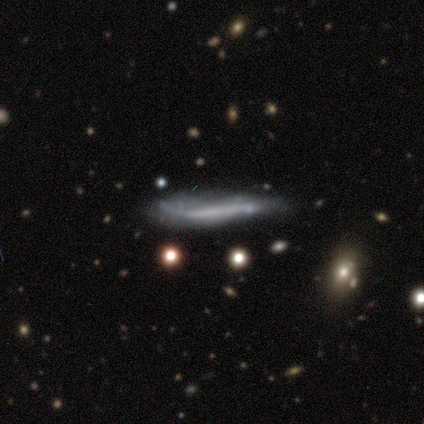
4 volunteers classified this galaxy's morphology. This is likely a featured or disk galaxy (75%). It is clearly viewed edge-on (100%). Edge-on bulge: clearly none (100%). Merging: possibly major disturbance (50%).